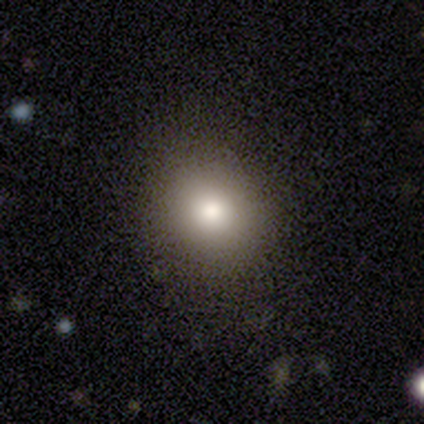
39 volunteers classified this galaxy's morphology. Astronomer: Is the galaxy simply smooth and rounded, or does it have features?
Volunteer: smooth — 87%.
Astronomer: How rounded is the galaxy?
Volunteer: round — 85%.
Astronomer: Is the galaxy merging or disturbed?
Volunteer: none — 95%.